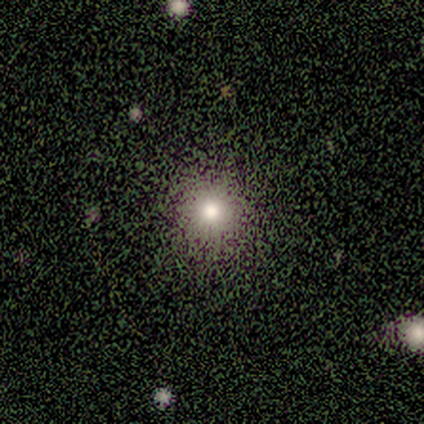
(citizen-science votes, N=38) This is likely a smooth galaxy (66%). How rounded: clearly round (96%). Merging: possibly none (52%).